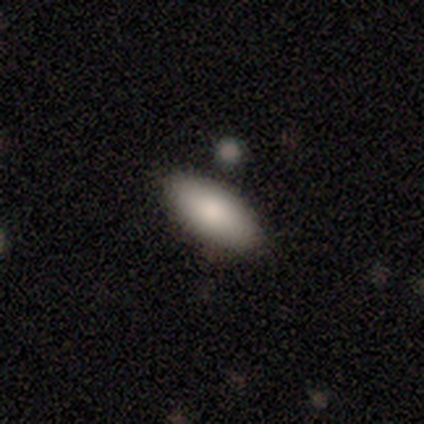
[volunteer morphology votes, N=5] Smooth or featured: smooth — 100%
How rounded: in between — 100%
Merging: none — 60% (minor disturbance — 20%)